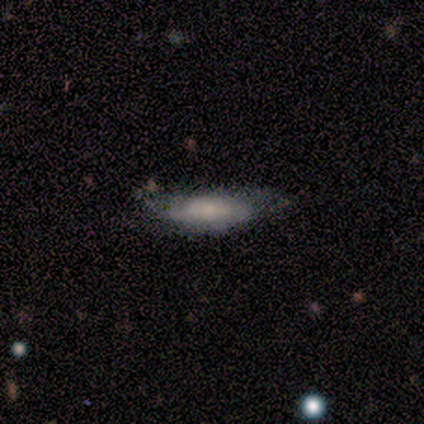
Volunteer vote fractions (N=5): Smooth or featured?
  - featured or disk: 60% *
  - smooth: 20%
  - star or artifact: 20%
Edge-on disk?
  - no: 100% *
  - yes: 0%
Bar?
  - strong: 33% * (tied)
  - weak: 33% * (tied)
  - no: 33% * (tied)
Spiral arms?
  - no: 67% *
  - yes: 33%
Bulge size?
  - small: 67% *
  - moderate: 33%
  - dominant: 0%
  - large: 0%
  - none: 0%
Merging?
  - none: 50% *
  - minor disturbance: 25%
  - major disturbance: 25%
  - merger: 0%